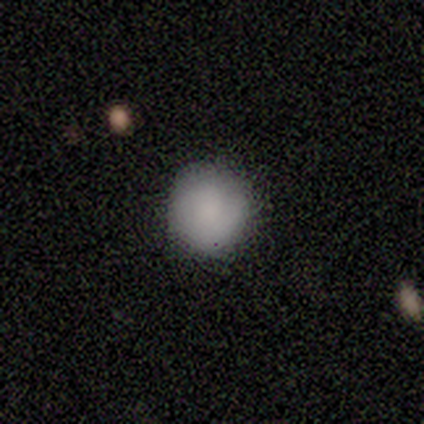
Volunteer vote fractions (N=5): Smooth or featured? smooth (80%)
How rounded? round (75%)
Merging? none (100%)